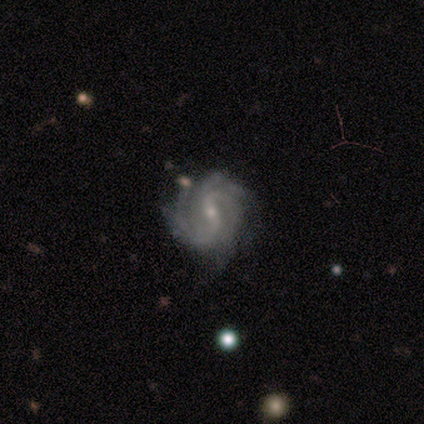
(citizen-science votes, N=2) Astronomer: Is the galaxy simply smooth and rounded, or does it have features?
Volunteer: featured or disk — 100%.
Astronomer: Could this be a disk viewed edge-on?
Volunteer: no — 100%.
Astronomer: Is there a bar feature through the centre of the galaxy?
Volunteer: strong — 50%, tied with no at 50%.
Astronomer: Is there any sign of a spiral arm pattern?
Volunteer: yes — 100%.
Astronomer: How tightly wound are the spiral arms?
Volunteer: medium — 100%.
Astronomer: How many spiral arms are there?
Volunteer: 2 — 50%, tied with can't tell at 50%.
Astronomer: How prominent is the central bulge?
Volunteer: moderate — 50%, tied with small at 50%.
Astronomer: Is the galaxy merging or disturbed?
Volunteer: none — 50%, tied with major disturbance at 50%.